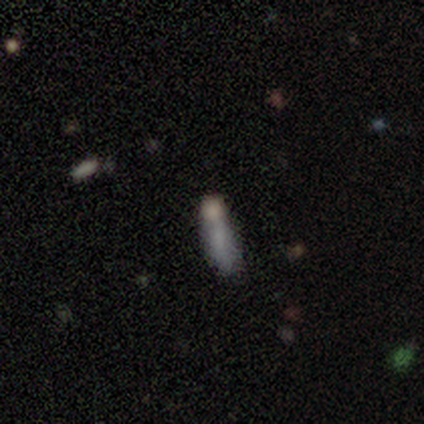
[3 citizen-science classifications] Q: Smooth or featured?
A: smooth (100%)
Q: How rounded?
A: cigar-shaped (100%)
Q: Merging?
A: none (67%); runner-up: minor disturbance (33%)